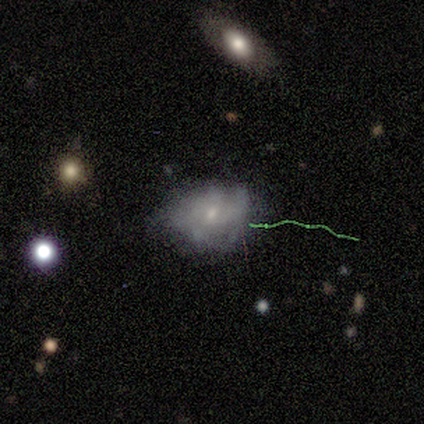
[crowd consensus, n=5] Volunteers were most divided on "merging" (2-way tie): minor disturbance: 40%, major disturbance: 40%, none: 20%, merger: 0%. More confident: how rounded — in between (100%); smooth or featured — smooth (60%).